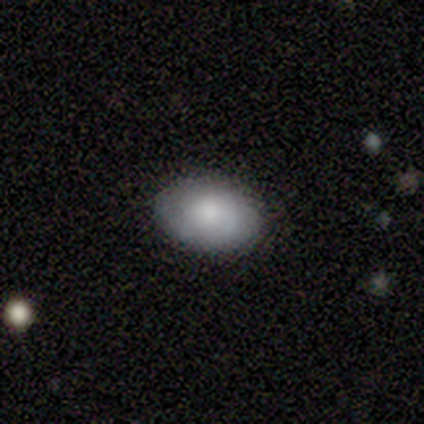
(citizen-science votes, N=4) Smooth or featured? 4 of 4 (100%) said smooth. How rounded? 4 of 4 (100%) said in between. Merging? 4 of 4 (100%) said none.